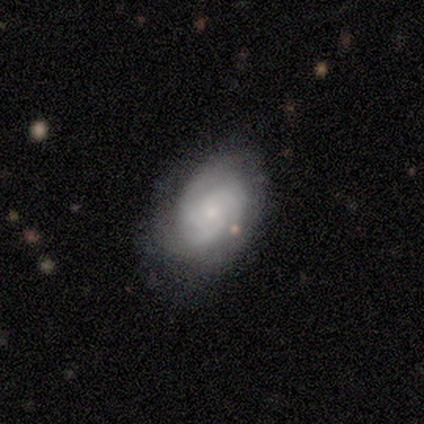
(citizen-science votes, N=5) A featured or disk galaxy (60%) with no bar (100%), 3 (33%, tied with 4 and can't tell) medium (67%) spiral arms (100%) and a small central bulge (100%). Merging: none (75%).